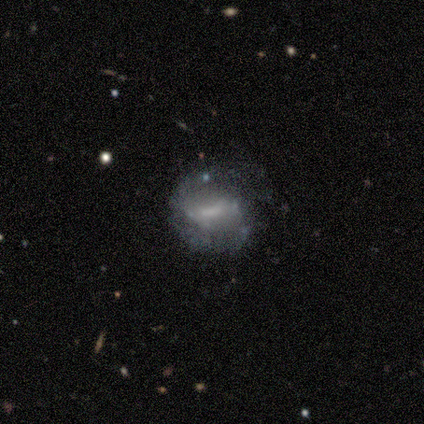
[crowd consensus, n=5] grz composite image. It shows a featured or disk galaxy (60%) with a strong bar (67%), 2 (100%) medium (50%, tied with loose) spiral arms (67%) and a large central bulge (33%, tied with small and none). Merging: none (75%).